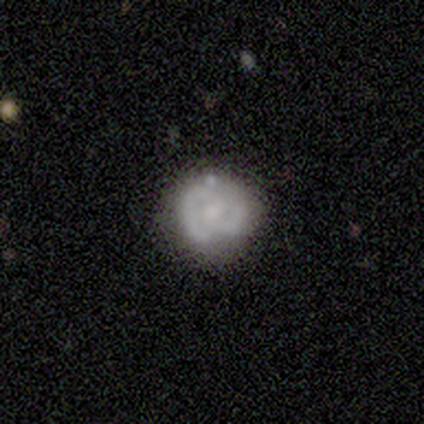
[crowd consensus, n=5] A featured or disk galaxy (80%) with no bar (75%), 2 (100%) medium (67%) spiral arms (75%) and a small central bulge (50%). Merging: none (60%).